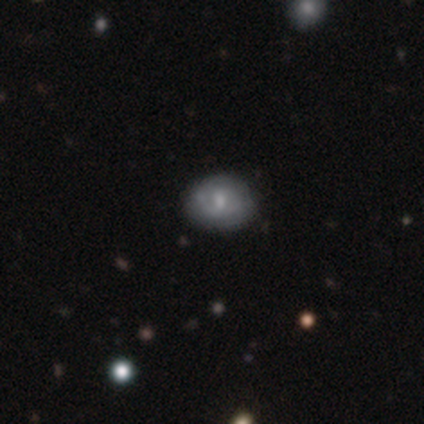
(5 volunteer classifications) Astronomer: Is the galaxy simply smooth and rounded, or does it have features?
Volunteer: featured or disk — 80%.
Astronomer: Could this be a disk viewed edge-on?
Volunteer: no — 100%.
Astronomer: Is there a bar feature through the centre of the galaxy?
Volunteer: no — 75%.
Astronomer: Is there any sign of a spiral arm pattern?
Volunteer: yes — 50%, tied with no at 50%.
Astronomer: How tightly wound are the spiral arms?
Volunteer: tight — 50%, tied with medium at 50%.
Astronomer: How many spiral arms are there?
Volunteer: can't tell — 100%.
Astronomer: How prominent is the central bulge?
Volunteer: moderate — 75%.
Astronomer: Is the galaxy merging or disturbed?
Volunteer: none — 100%.